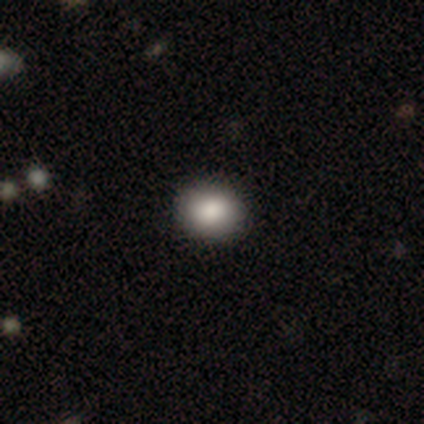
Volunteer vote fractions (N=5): Morphology: type=smooth (80%); roundness=round (75%); merging=none (100%).